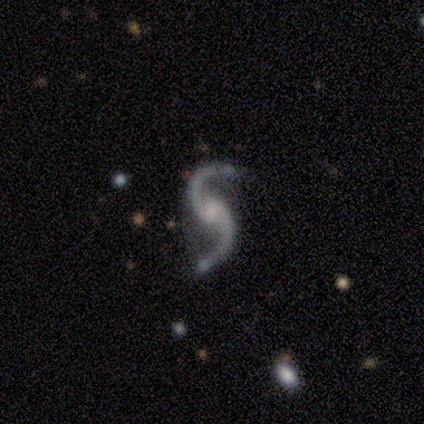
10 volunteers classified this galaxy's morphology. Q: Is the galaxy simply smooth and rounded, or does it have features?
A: featured or disk — 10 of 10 (100%).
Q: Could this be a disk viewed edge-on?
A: no — 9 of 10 (90%).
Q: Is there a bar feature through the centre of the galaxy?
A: weak — 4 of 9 (44%).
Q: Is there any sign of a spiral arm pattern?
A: yes — 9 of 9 (100%).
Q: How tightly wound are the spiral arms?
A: loose — 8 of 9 (89%).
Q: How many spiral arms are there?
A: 2 — 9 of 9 (100%).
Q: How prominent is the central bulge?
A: small — 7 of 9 (78%).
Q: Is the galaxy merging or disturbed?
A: none — 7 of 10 (70%).